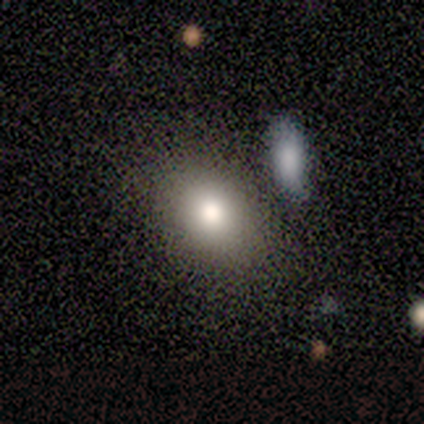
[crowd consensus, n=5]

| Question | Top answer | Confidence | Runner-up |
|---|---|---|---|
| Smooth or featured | smooth | 60% | featured or disk (20%) |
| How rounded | in between | 100% | — |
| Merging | none | 75% | minor disturbance (25%) |